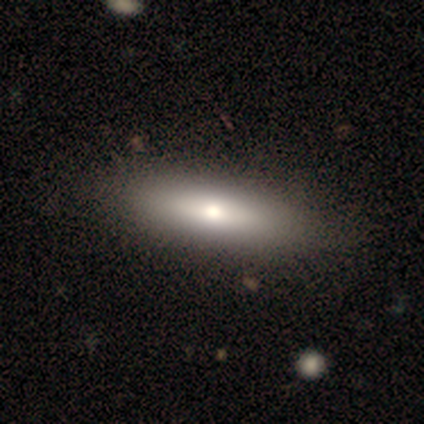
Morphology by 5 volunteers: This appears to be a smooth galaxy with no disk features (80%) that is in between round and cigar-shaped (75%). Merging: none (100%).